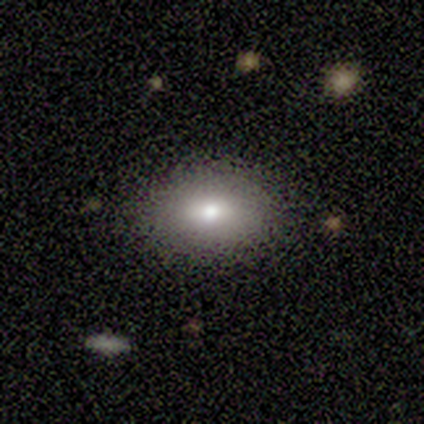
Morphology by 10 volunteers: smooth 80%, featured or disk 10%, star or artifact 10%. Down the decision tree: how rounded — in between (100%); merging — none (89%).